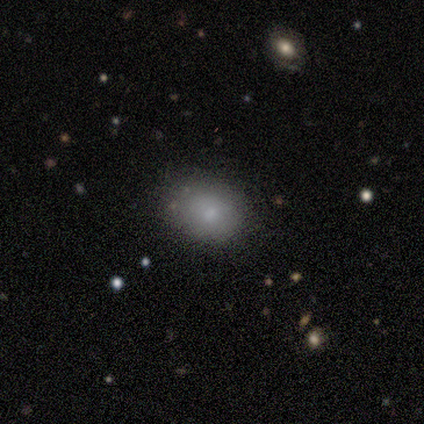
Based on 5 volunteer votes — Smooth or featured: smooth — 100%
How rounded: round — 60% (in between — 40%)
Merging: none — 80% (minor disturbance — 20%)